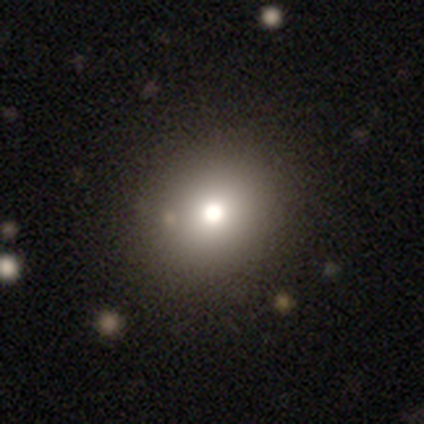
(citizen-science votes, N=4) A featured or disk galaxy (50%) with no bar (100%), no spiral arms (100%) and a dominant central bulge (50%, tied with moderate). Merging: none (67%).